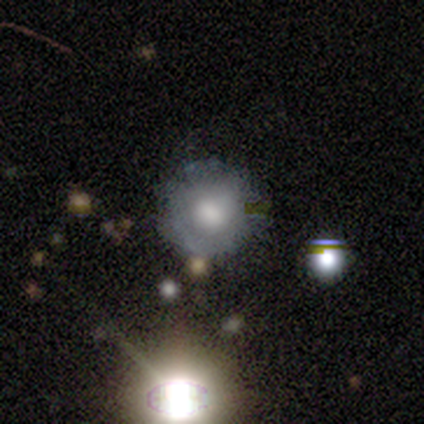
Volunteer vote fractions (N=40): Smooth or featured? smooth (52%)
How rounded? round (90%)
Merging? none (75%)